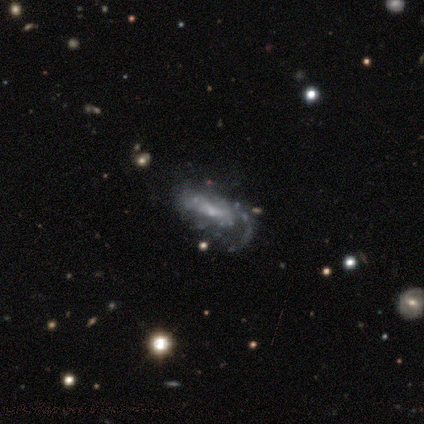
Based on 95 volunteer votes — This is likely a featured or disk galaxy (76%). It is clearly not viewed edge-on (96%). Bar: likely no (68%). Spiral arm pattern: likely yes (78%). Spiral arm count: marginally 1 (44%). Spiral winding: possibly medium (46%). Central bulge: likely small (74%). Merging: possibly none (47%).